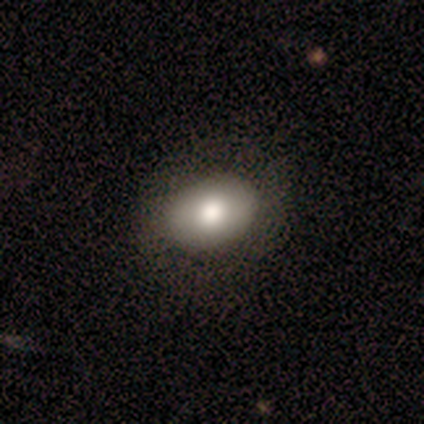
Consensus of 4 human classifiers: smooth 75%, featured or disk 25%, star or artifact 0%. Down the decision tree: how rounded — in between (67%); merging — none (100%).